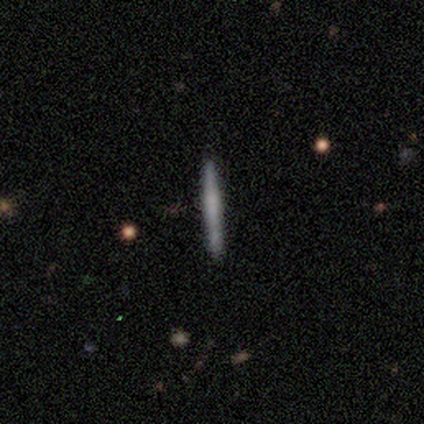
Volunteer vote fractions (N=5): Morphology: type=smooth (60%); roundness=cigar-shaped (100%); merging=none (100%).